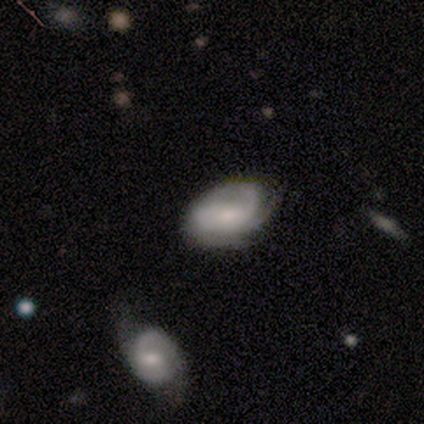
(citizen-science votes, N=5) smooth_or_featured: featured or disk (p=0.80) [alt: smooth p=0.20]
disk_edge_on: no (p=1.00)
bar: no (p=1.00)
has_spiral_arms: yes (p=0.75) [alt: no p=0.25]
spiral_winding: medium (p=0.67) [alt: tight p=0.33]
spiral_arm_count: 3 (p=0.67) [alt: can't tell p=0.33]
bulge_size: moderate (p=0.50) [alt: small p=0.25]
merging: none (p=1.00)